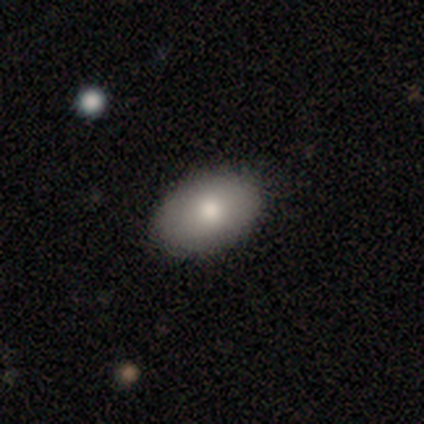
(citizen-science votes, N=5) smooth_or_featured: smooth (p=0.60) [alt: featured or disk p=0.40]
how_rounded: in between (p=1.00)
merging: none (p=1.00)